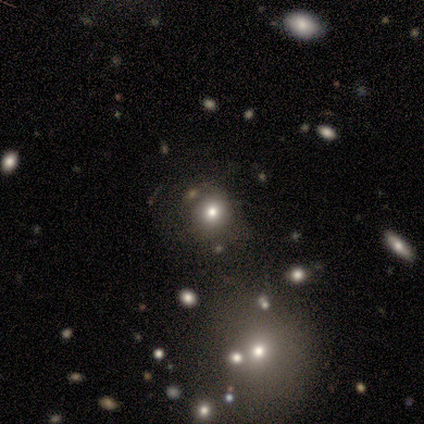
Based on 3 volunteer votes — smooth-or-featured: smooth: 100% | featured or disk: 0% | star or artifact: 0%
  how-rounded: round: 100% | in between: 0% | cigar-shaped: 0%
  merging: none: 67% | minor disturbance: 33% | major disturbance: 0% | merger: 0%